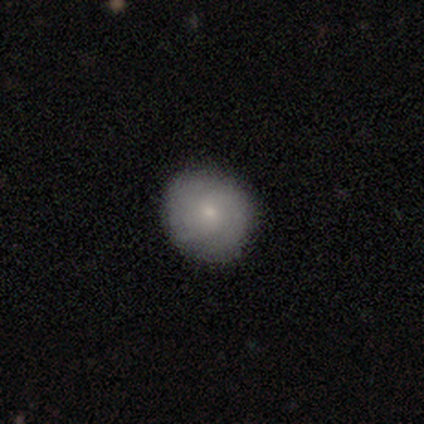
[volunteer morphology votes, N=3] featured or disk 67%, star or artifact 33%, smooth 0%. Down the decision tree: edge-on disk — no (100%); bar — no (100%); spiral arms — yes (100%); spiral arm count — can't tell (100%); spiral winding — tight (50%, tied with medium); bulge size — small (100%); merging — none (100%).